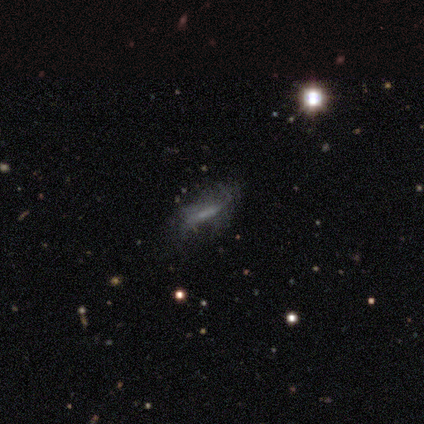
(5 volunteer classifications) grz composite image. It shows a smooth galaxy with no disk features (40%, tied with featured or disk) that is cigar-shaped (100%). Merging: none (100%).